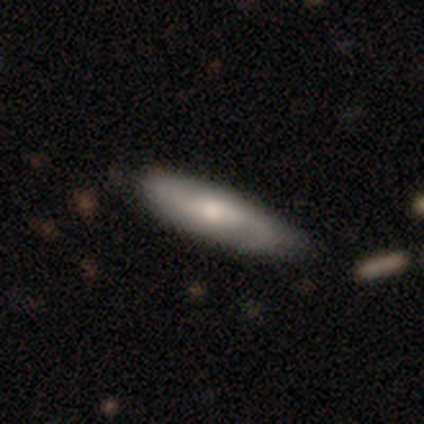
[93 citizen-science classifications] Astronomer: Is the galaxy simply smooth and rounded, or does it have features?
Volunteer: smooth — 56% (runner-up: featured or disk, 39%).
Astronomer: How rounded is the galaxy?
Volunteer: cigar-shaped — 71%.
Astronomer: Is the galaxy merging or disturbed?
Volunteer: none — 72%.